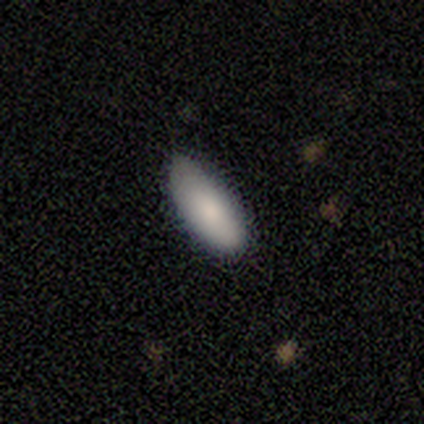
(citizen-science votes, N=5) This is clearly a smooth galaxy (80%). How rounded: likely in between (75%). Merging: likely none (60%).